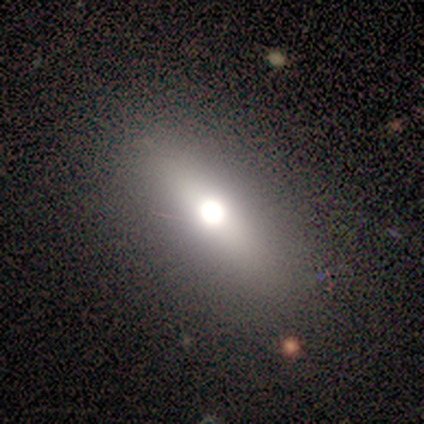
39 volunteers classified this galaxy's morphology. Volunteers were most divided on "how rounded": cigar-shaped: 50%, in between: 45%, round: 5%. More confident: merging — none (90%); smooth or featured — smooth (51%).